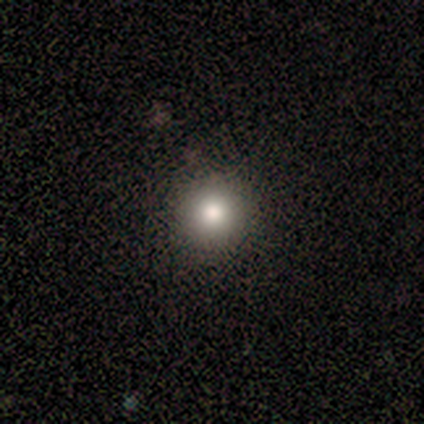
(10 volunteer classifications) A smooth galaxy with no disk features (90%) that is round (89%).

Vote fractions:
- Smooth or featured? smooth: 90% / featured or disk: 10% / star or artifact: 0%
- How rounded? round: 89% / in between: 11% / cigar-shaped: 0%
- Merging? none: 100% / minor disturbance: 0% / major disturbance: 0% / merger: 0%